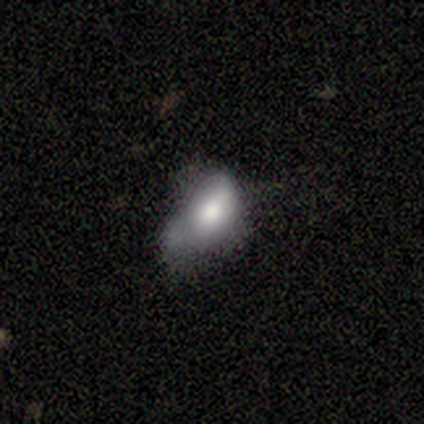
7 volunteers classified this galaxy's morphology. Smooth or featured? smooth (86%)
How rounded? in between (83%)
Merging? major disturbance (57%)